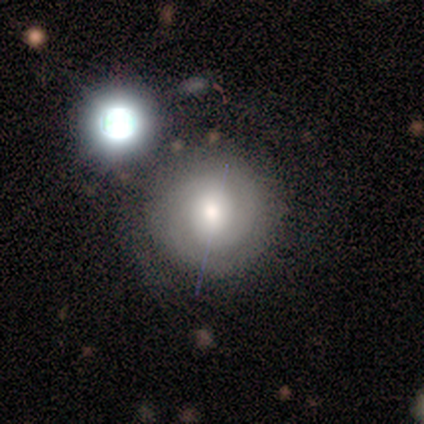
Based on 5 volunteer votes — Morphology: type=smooth (60%); roundness=round (100%); merging=none (60%).